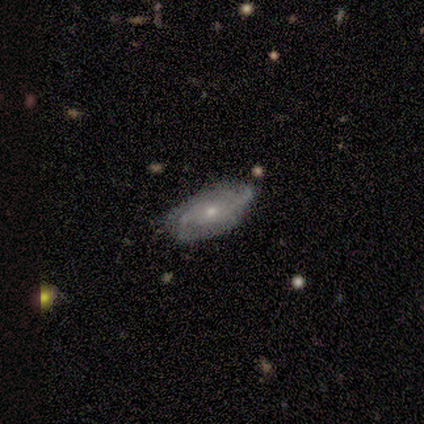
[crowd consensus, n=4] featured or disk 100%, smooth 0%, star or artifact 0%. Down the decision tree: edge-on disk — no (100%); bar — no (75%); spiral arms — yes (75%); spiral arm count — 2 (33%, tied with 3 and can't tell); spiral winding — medium (67%); bulge size — moderate (50%, tied with small); merging — none (75%).